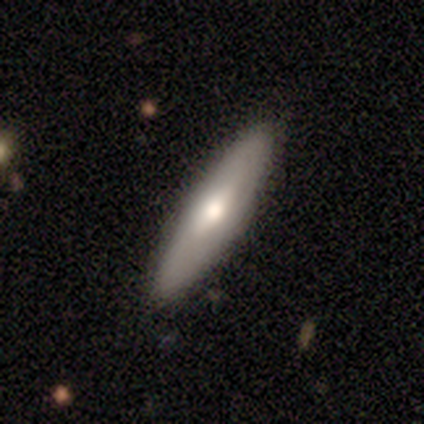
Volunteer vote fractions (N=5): Q: Smooth or featured?
A: smooth (60%); runner-up: featured or disk (40%)
Q: How rounded?
A: cigar-shaped (67%); runner-up: in between (33%)
Q: Merging?
A: none (100%)